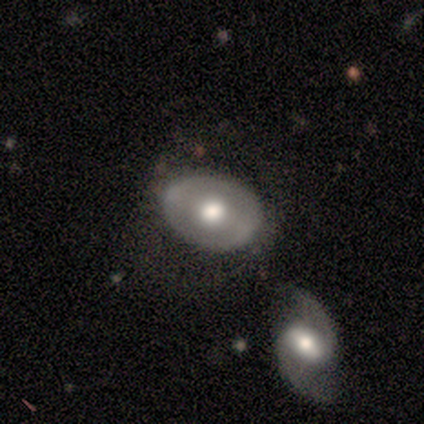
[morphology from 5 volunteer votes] This is likely a smooth galaxy (60%). How rounded: likely in between (67%). Merging: likely merger (60%).